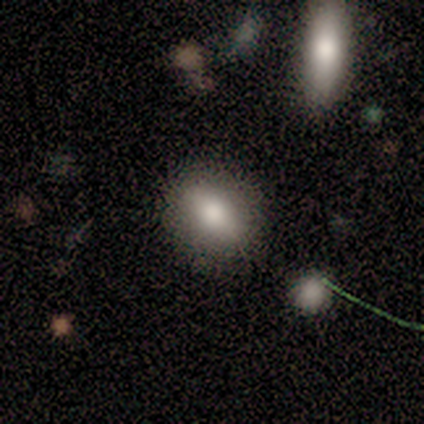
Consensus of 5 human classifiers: Smooth or featured? smooth (80%)
How rounded? round (50%, tied with in between)
Merging? none (80%)